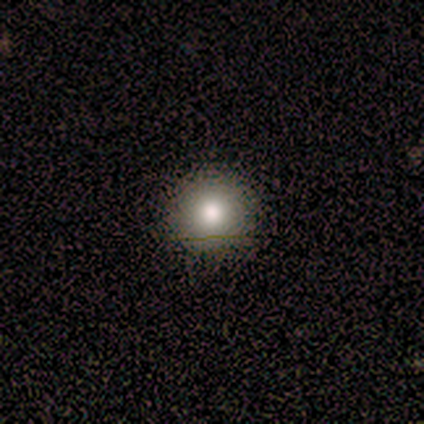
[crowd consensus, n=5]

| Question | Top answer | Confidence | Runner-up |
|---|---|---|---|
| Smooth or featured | smooth | 80% | star or artifact (20%) |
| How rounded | round | 100% | — |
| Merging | none | 100% | — |